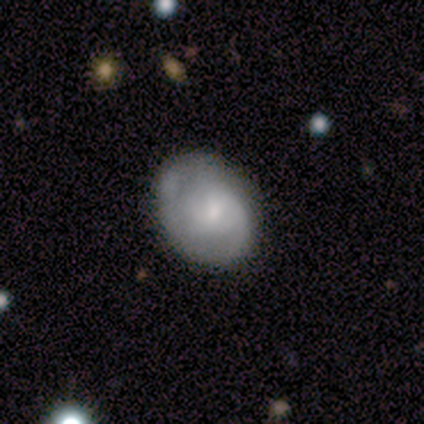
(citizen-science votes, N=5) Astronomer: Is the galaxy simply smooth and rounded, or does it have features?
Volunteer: smooth — 40%, tied with star or artifact at 40%.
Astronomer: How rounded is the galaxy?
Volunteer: round — 100%.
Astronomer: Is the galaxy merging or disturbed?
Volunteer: none — 100%.